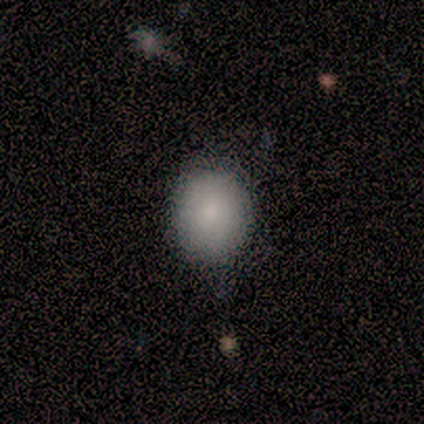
Smooth or featured?
  - smooth: 80% *
  - star or artifact: 20%
  - featured or disk: 0%
How rounded?
  - round: 75% *
  - in between: 25%
  - cigar-shaped: 0%
Merging?
  - none: 100% *
  - minor disturbance: 0%
  - major disturbance: 0%
  - merger: 0%